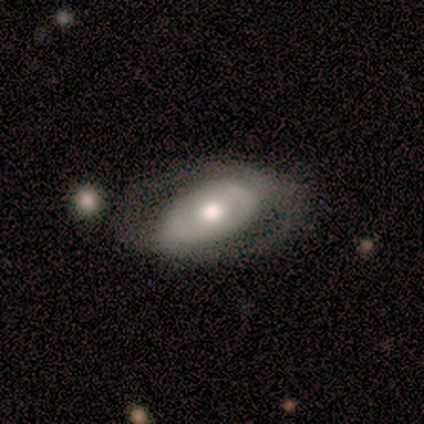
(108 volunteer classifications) A featured or disk galaxy (68%) with no bar (69%), no spiral arms (64%) and a moderate central bulge (67%).

Vote fractions:
- Smooth or featured? featured or disk: 68% / smooth: 28% / star or artifact: 5%
- Edge-on disk? no: 99% / yes: 1%
- Bar? no: 69% / strong: 19% / weak: 11%
- Spiral arms? no: 64% / yes: 36%
- Bulge size? moderate: 67% / large: 25% / small: 7% / dominant: 1% / none: 0%
- Merging? none: 65% / minor disturbance: 20% / major disturbance: 13% / merger: 2%